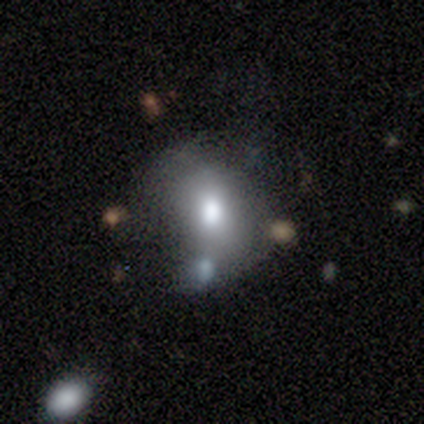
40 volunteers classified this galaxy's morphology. A smooth galaxy with no disk features (57%) that is round (61%).

Vote fractions:
- Smooth or featured? smooth: 57% / featured or disk: 30% / star or artifact: 12%
- How rounded? round: 61% / in between: 39% / cigar-shaped: 0%
- Merging? none: 31% (tied) / minor disturbance: 31% (tied) / major disturbance: 20% / merger: 17%